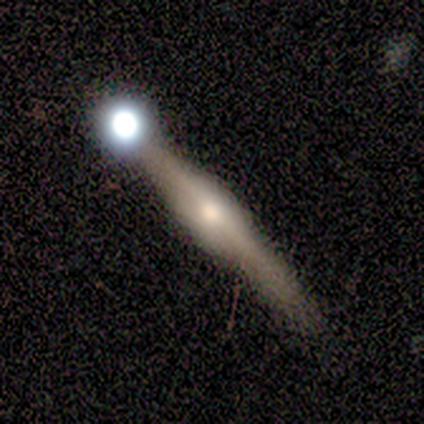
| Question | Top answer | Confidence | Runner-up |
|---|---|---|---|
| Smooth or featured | featured or disk | 76% | star or artifact (16%) |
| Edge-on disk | yes | 97% | no (3%) |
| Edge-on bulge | boxy | 54% | rounded (46%) |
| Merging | none | 66% | minor disturbance (25%) |